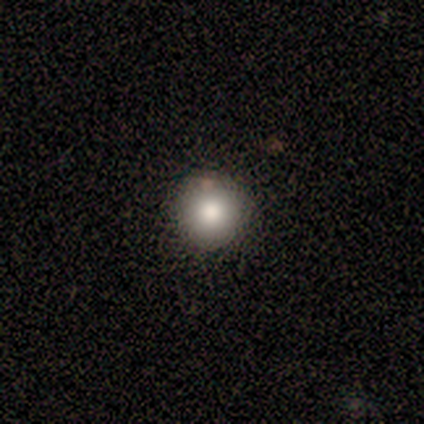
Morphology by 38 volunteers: Q: Smooth or featured?
A: smooth (89%); runner-up: star or artifact (11%)
Q: How rounded?
A: round (94%); runner-up: in between (3%)
Q: Merging?
A: none (100%)